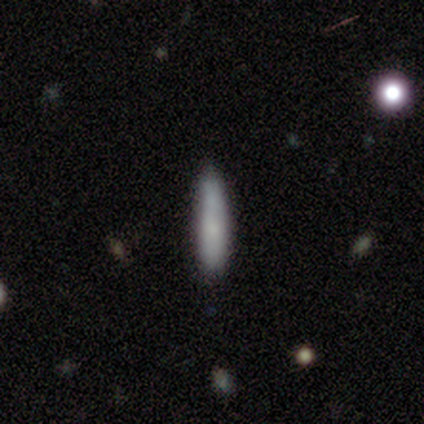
Overall: smooth (60%; featured or disk 40%). How rounded: cigar-shaped (100%). Merging: none (60%; minor disturbance 20%).